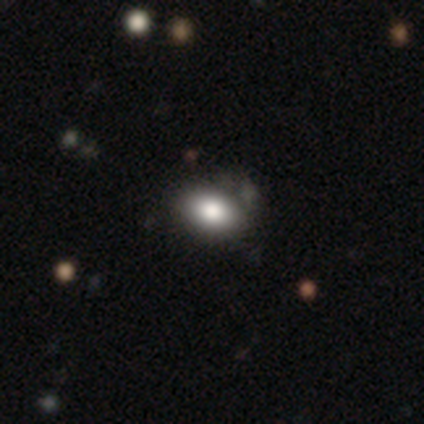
A smooth galaxy with no disk features (80%) that is in between round and cigar-shaped (100%). Merging: none (75%).